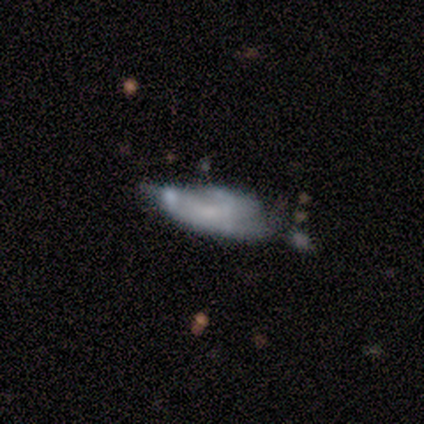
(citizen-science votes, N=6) Morphology: type=featured or disk (50%); edge-on=no (67%); bar=weak (100%); spiral arms=yes (100%); winding=tight (50%, tied with medium); arm count=2 (100%); bulge=large (50%, tied with small); merging=minor disturbance (60%).